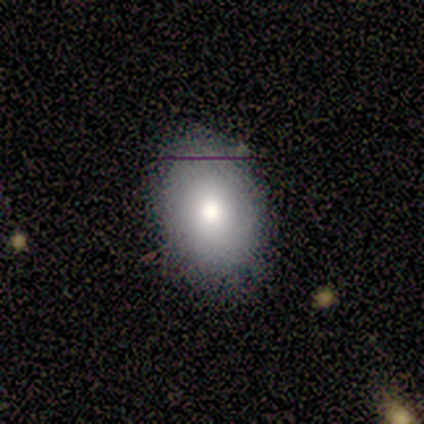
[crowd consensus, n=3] smooth-or-featured: smooth: 100% | featured or disk: 0% | star or artifact: 0%
  how-rounded: round: 33% (tied) | in between: 33% (tied) | cigar-shaped: 33% (tied)
  merging: none: 100% | minor disturbance: 0% | major disturbance: 0% | merger: 0%